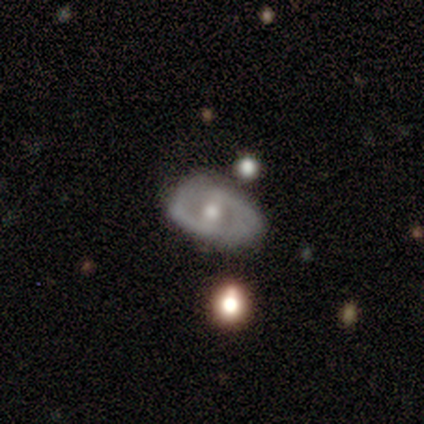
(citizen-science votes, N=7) Overall: featured or disk (100%). Edge-on disk: no (86%). Bar: weak (67%). Spiral arms: yes (83%). Spiral arm count: 2 (80%). Spiral winding: tight (60%; medium 40%). Bulge size: moderate (67%). Merging: none (43%, tied with minor disturbance).